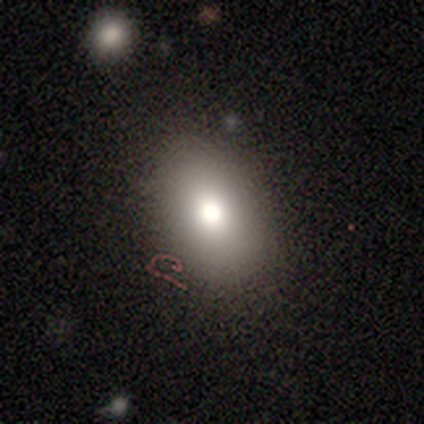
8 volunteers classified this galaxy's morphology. Q: Smooth or featured?
A: smooth (75%); runner-up: featured or disk (25%)
Q: How rounded?
A: in between (83%); runner-up: round (17%)
Q: Merging?
A: none (100%)